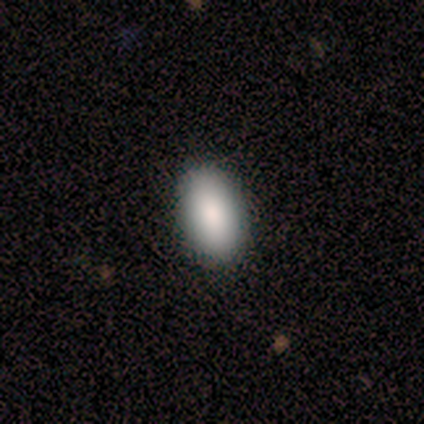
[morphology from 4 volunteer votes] smooth 100%, featured or disk 0%, star or artifact 0%. Down the decision tree: how rounded — in between (100%); merging — none (100%).